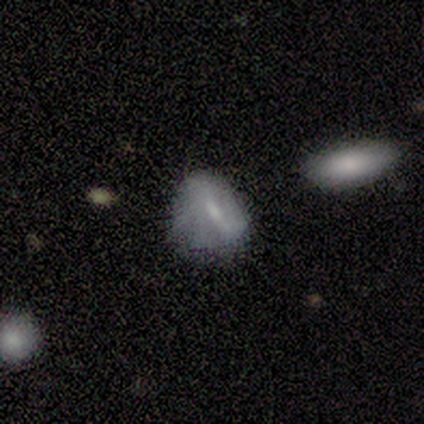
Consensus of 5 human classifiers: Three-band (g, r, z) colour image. It shows a smooth galaxy with no disk features (80%) that is in between round and cigar-shaped (75%). Merging: none (60%).